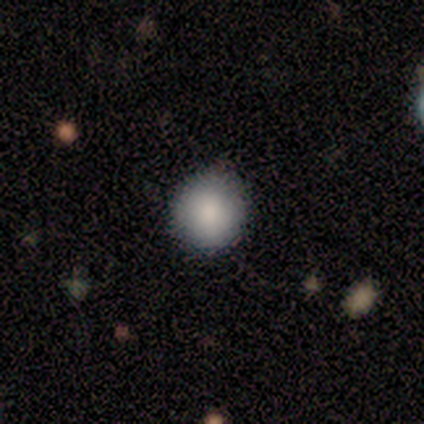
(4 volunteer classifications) Q: Smooth or featured?
A: smooth (75%); runner-up: star or artifact (25%)
Q: How rounded?
A: round (67%); runner-up: in between (33%)
Q: Merging?
A: none (67%); runner-up: minor disturbance (33%)